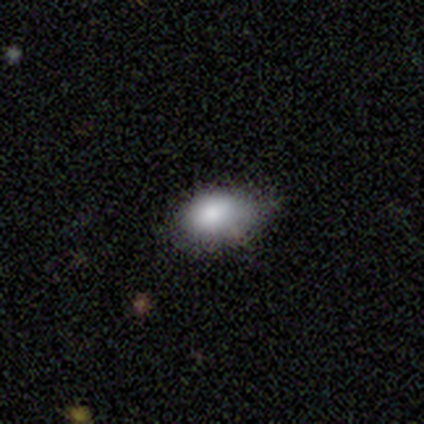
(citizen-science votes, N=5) Smooth or featured: smooth — 80% (featured or disk — 20%)
How rounded: in between — 100%
Merging: none — 60% (minor disturbance — 40%)